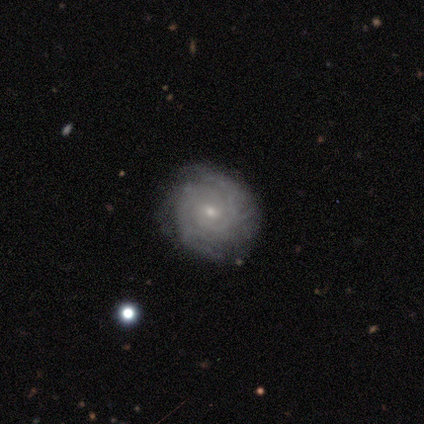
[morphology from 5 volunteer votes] smooth-or-featured: featured or disk: 80% | smooth: 20% | star or artifact: 0%
  disk-edge-on: no: 100% | yes: 0%
    bar: no: 100% | strong: 0% | weak: 0%
    has-spiral-arms: yes: 100% | no: 0%
      spiral-winding: tight: 100% | medium: 0% | loose: 0%
      spiral-arm-count: 3: 50% (tied) | can't tell: 50% (tied) | 1: 0% | 2: 0% | 4: 0% | more than 4: 0%
    bulge-size: small: 75% | moderate: 25% | dominant: 0% | large: 0% | none: 0%
  merging: none: 80% | minor disturbance: 20% | major disturbance: 0% | merger: 0%